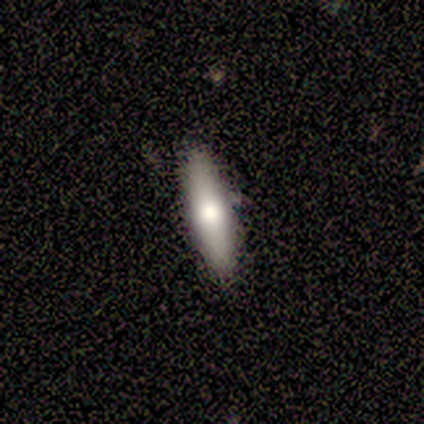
Smooth or featured?
  - smooth: 60% *
  - featured or disk: 20%
  - star or artifact: 20%
How rounded?
  - cigar-shaped: 67% *
  - in between: 33%
  - round: 0%
Merging?
  - none: 100% *
  - minor disturbance: 0%
  - major disturbance: 0%
  - merger: 0%